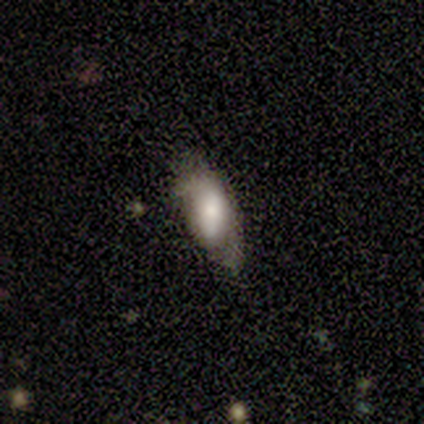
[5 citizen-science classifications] Smooth or featured?
  - featured or disk: 60% *
  - smooth: 40%
  - star or artifact: 0%
Edge-on disk?
  - no: 67% *
  - yes: 33%
Bar?
  - weak: 50% * (tied)
  - no: 50% * (tied)
  - strong: 0%
Spiral arms?
  - no: 100% *
  - yes: 0%
Bulge size?
  - large: 50% * (tied)
  - small: 50% * (tied)
  - dominant: 0%
  - moderate: 0%
  - none: 0%
Merging?
  - minor disturbance: 40% * (tied)
  - major disturbance: 40% * (tied)
  - none: 20%
  - merger: 0%